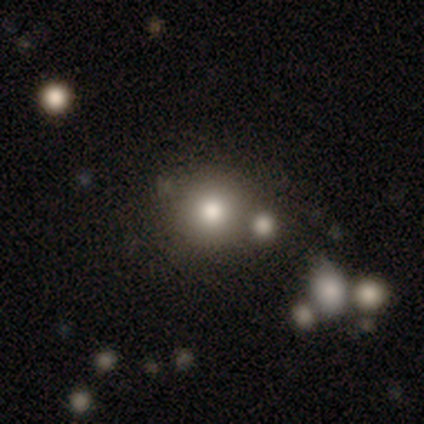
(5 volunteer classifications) Smooth or featured? smooth (80%)
How rounded? round (100%)
Merging? none (80%)